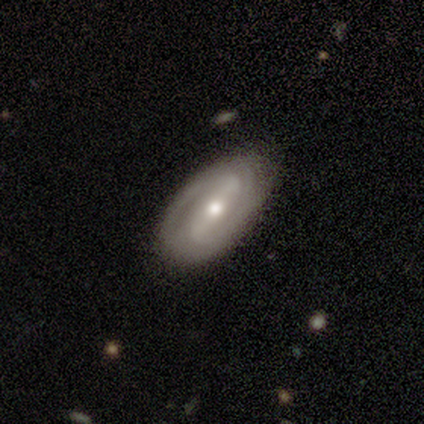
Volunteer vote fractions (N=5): Smooth or featured?
  - featured or disk: 100% *
  - smooth: 0%
  - star or artifact: 0%
Edge-on disk?
  - no: 100% *
  - yes: 0%
Bar?
  - strong: 60% *
  - weak: 20%
  - no: 20%
Spiral arms?
  - yes: 100% *
  - no: 0%
Spiral winding?
  - medium: 60% *
  - tight: 40%
  - loose: 0%
Spiral arm count?
  - 2: 100% *
  - 1: 0%
  - 3: 0%
  - 4: 0%
  - more than 4: 0%
  - can't tell: 0%
Bulge size?
  - moderate: 80% *
  - small: 20%
  - dominant: 0%
  - large: 0%
  - none: 0%
Merging?
  - none: 100% *
  - minor disturbance: 0%
  - major disturbance: 0%
  - merger: 0%